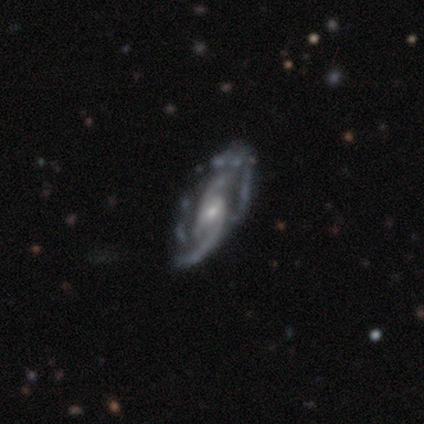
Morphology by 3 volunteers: type=featured or disk (67%); edge-on=no (100%); bar=weak (50%, tied with no); spiral arms=yes (100%); winding=tight (50%, tied with medium); arm count=2 (100%); bulge=small (100%); merging=none (100%).